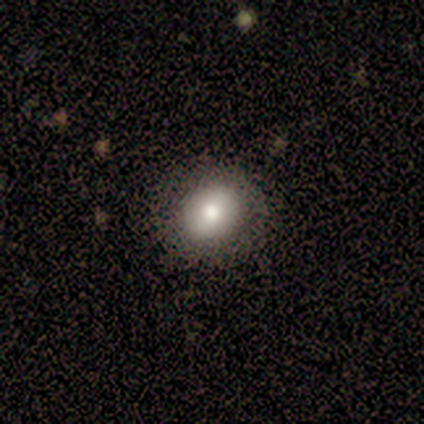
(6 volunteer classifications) Smooth or featured? 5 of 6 (83%) said smooth. How rounded? 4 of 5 (80%) said round. Merging? 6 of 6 (100%) said none.